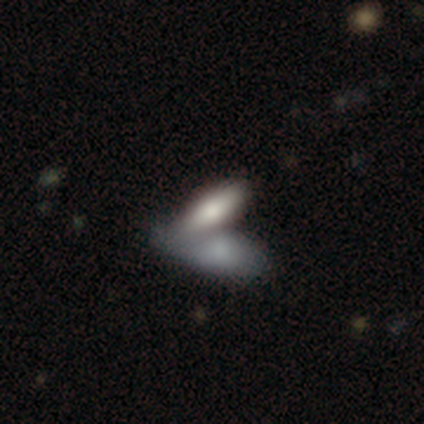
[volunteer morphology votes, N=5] Smooth or featured? 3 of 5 (60%) said smooth. How rounded? 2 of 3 (67%) said cigar-shaped. Merging? 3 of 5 (60%) said none.